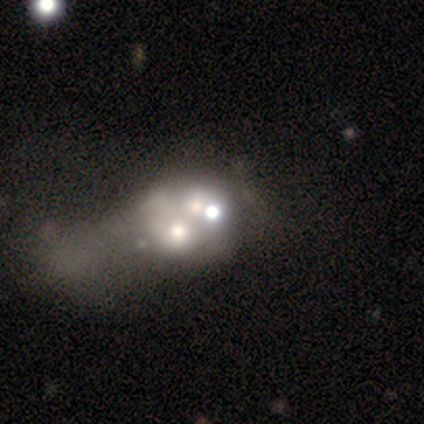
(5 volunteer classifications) Smooth or featured? 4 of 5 (80%) said featured or disk. Edge-on disk? 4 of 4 (100%) said no. Bar? 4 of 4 (100%) said no. Spiral arms? 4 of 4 (100%) said no. Bulge size? 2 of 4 (50%) said moderate. Merging? 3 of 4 (75%) said merger.